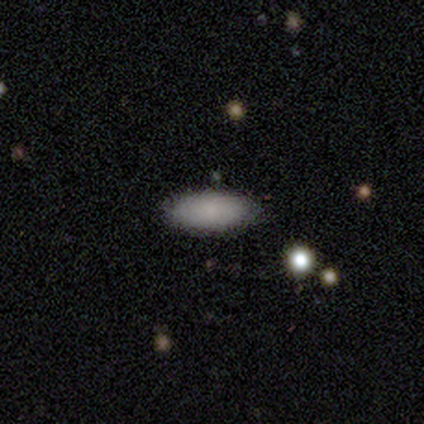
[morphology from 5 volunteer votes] smooth 100%, featured or disk 0%, star or artifact 0%. Down the decision tree: how rounded — cigar-shaped (60%); merging — none (100%).